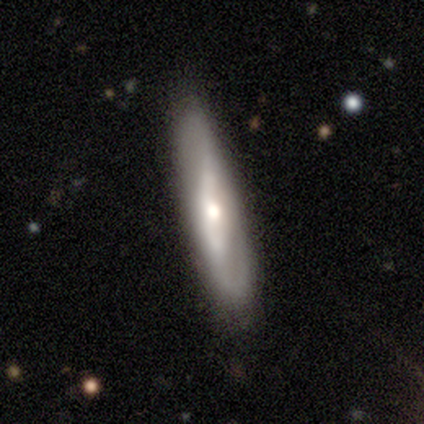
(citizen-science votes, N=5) Volunteers were most divided on "edge-on disk" (2-way tie): yes: 50%, no: 50%. More confident: edge-on bulge — rounded (100%); merging — none (100%); smooth or featured — featured or disk (80%).